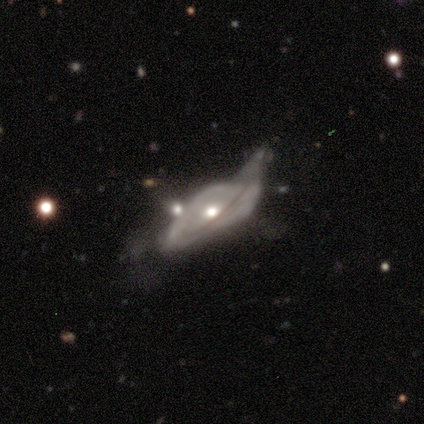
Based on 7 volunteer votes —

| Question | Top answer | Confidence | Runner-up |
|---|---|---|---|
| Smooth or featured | featured or disk | 57% | smooth (29%) |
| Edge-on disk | no | 75% | yes (25%) |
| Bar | no | 100% | — |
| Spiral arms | yes | 67% | no (33%) |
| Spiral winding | medium | 50% | tied: loose (50%) |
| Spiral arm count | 2 | 50% | tied: can't tell (50%) |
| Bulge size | moderate | 67% | small (33%) |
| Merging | minor disturbance | 33% | tied: major disturbance (33%), merger (33%) |